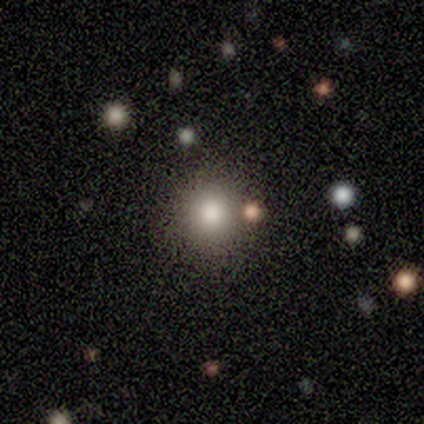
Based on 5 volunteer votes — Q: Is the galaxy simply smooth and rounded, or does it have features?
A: smooth — 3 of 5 (60%).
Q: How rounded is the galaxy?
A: round — 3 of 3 (100%).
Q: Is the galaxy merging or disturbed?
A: none — 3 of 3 (100%).